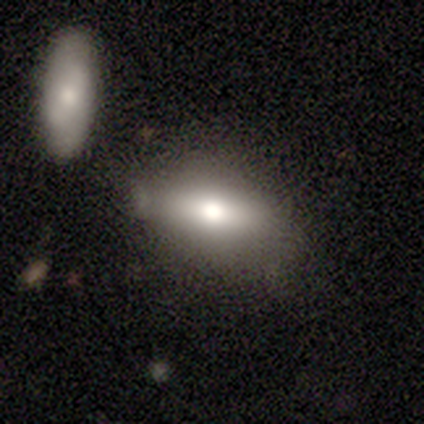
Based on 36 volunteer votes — smooth 56%, featured or disk 33%, star or artifact 11%. Down the decision tree: how rounded — in between (75%); merging — none (59%).